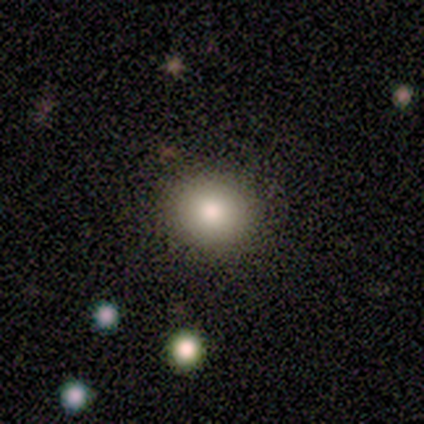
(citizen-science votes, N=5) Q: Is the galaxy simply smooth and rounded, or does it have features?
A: smooth — 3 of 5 (60%).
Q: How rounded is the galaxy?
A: round — 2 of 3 (67%).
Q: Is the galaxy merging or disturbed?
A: none — 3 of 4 (75%).